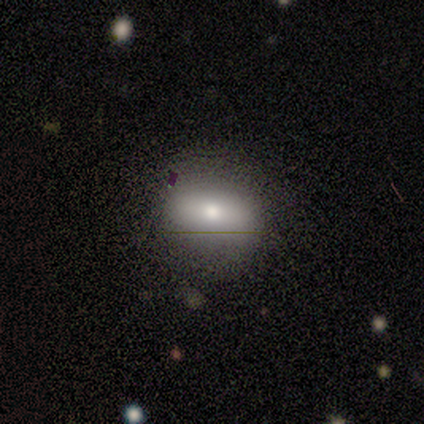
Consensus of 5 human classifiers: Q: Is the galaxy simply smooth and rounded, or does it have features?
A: smooth — 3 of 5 (60%).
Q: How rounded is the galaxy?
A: round — 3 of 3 (100%).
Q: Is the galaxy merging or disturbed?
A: none — 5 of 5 (100%).